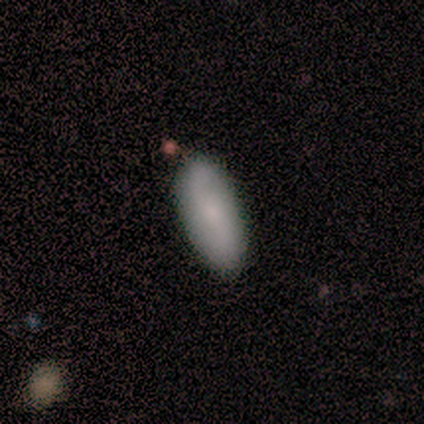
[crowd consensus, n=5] Q: Smooth or featured?
A: smooth (60%); runner-up: featured or disk (40%)
Q: How rounded?
A: in between (67%); runner-up: cigar-shaped (33%)
Q: Merging?
A: none (100%)